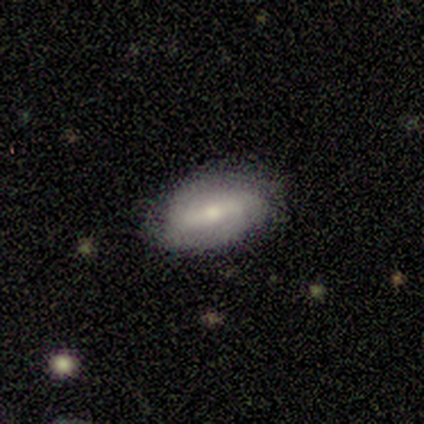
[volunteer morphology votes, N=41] Volunteers were most divided on "bulge size": moderate: 54%, small: 38%, none: 8%, dominant: 0%, large: 0%. More confident: edge-on disk — no (100%); spiral arms — yes (71%); spiral winding — tight (71%); merging — none (70%); bar — strong (62%); smooth or featured — featured or disk (59%); spiral arm count — 2 (53%).